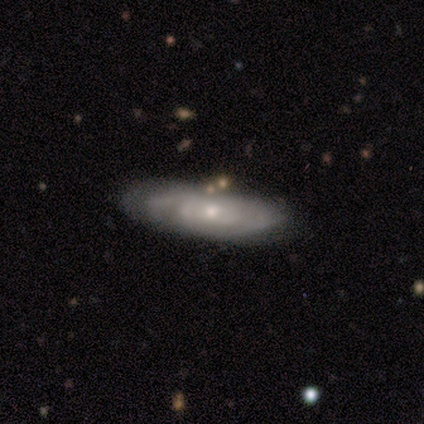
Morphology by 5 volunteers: type=featured or disk (100%); edge-on=no (80%); bar=weak (50%, tied with no); spiral arms=yes (100%); winding=tight (75%); arm count=can't tell (100%); bulge=moderate (50%, tied with small); merging=none (80%).